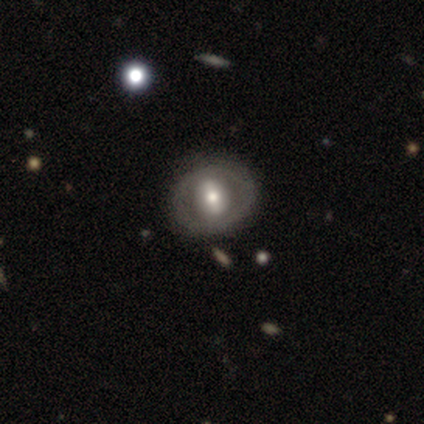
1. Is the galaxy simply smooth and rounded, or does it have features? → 50% featured or disk, 25% smooth, 25% star or artifact.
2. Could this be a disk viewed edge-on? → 100% no, 0% yes.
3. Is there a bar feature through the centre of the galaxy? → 40% strong (tied), 40% weak (tied), 20% no.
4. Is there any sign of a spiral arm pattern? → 100% no, 0% yes.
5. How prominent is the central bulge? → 50% moderate, 30% small, 20% large, 0% dominant, 0% none.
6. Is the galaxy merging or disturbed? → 87% none, 13% minor disturbance, 0% major disturbance, 0% merger.